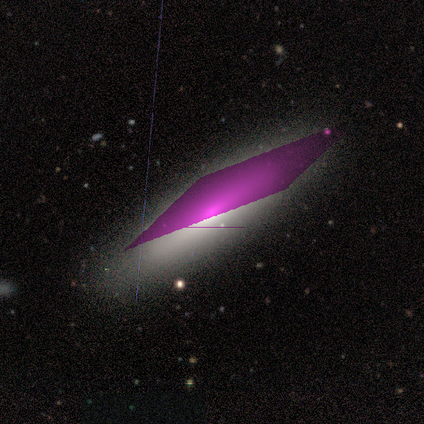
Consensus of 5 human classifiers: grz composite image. It shows a star or artifact, not a galaxy (80%).